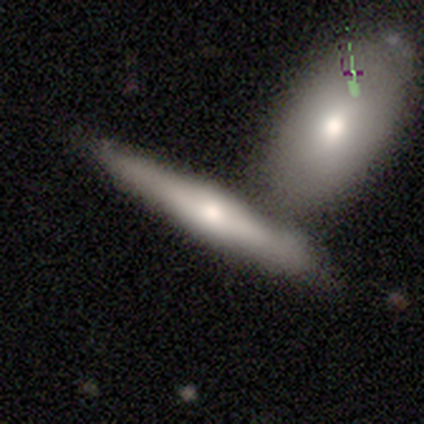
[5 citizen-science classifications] Overall: smooth (80%). How rounded: cigar-shaped (100%). Merging: merger (50%; none 25%).